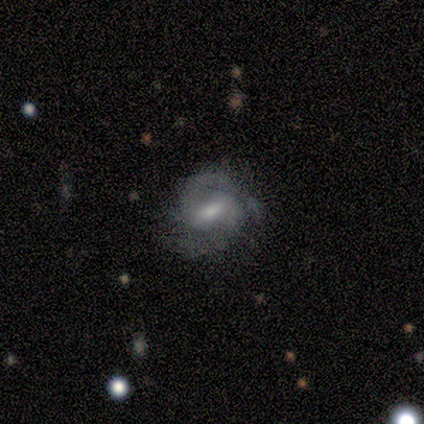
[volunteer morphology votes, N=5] Smooth or featured: featured or disk — 60% (smooth — 40%)
Edge-on disk: no — 100%
Bar: weak — 67% (strong — 33%)
Spiral arms: yes — 100%
Spiral winding: medium — 100%
Spiral arm count: 2 — 67% (can't tell — 33%)
Bulge size: moderate — 67% (large — 33%)
Merging: none — 80% (minor disturbance — 20%)